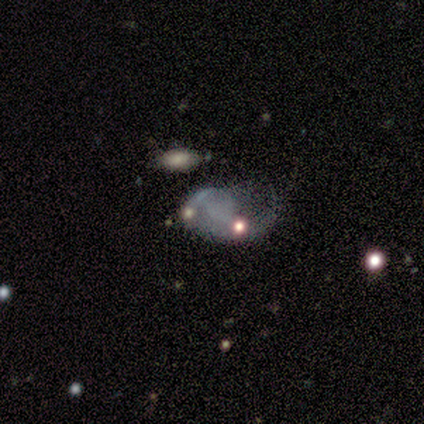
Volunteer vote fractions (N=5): Q: Smooth or featured?
A: featured or disk (60%); runner-up: smooth (40%)
Q: Edge-on disk?
A: no (100%)
Q: Bar?
A: no (67%); runner-up: weak (33%)
Q: Spiral arms?
A: yes (67%); runner-up: no (33%)
Q: Spiral winding?
A: medium (50%); tied with: loose (50%)
Q: Spiral arm count?
A: 1 (100%)
Q: Bulge size?
A: none (100%)
Q: Merging?
A: major disturbance (60%); runner-up: none (20%)